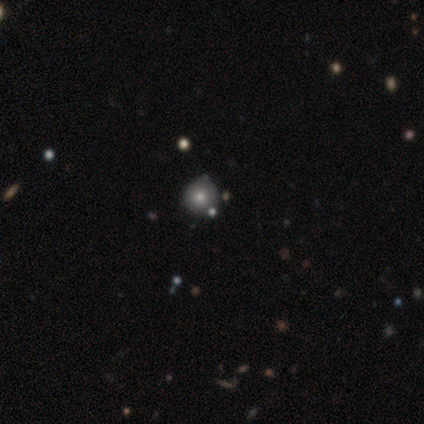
Smooth or featured? 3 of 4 (75%) said smooth. How rounded? 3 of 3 (100%) said round. Merging? 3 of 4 (75%) said none.